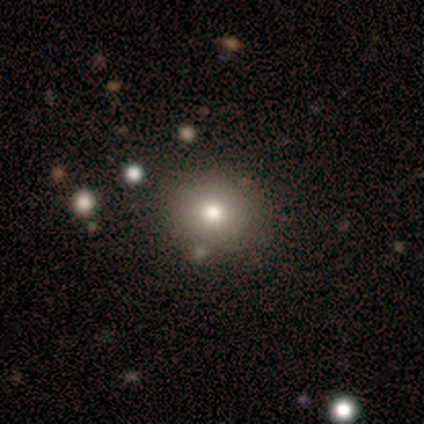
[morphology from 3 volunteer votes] A smooth galaxy with no disk features (100%) that is round (67%). Merging: none (100%).